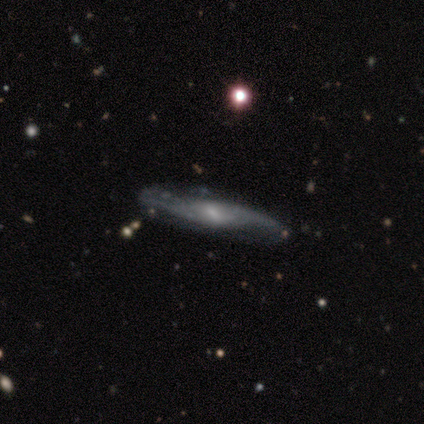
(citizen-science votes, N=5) Smooth or featured? 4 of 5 (80%) said featured or disk. Edge-on disk? 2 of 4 (50%, tied with no) said yes. Edge-on bulge? 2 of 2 (100%) said rounded. Merging? 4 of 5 (80%) said none.